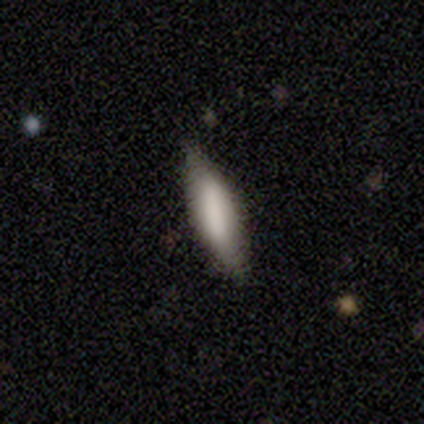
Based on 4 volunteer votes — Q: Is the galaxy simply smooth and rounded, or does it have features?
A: smooth — 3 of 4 (75%).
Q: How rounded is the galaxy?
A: cigar-shaped — 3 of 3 (100%).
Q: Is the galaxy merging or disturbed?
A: none — 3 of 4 (75%).